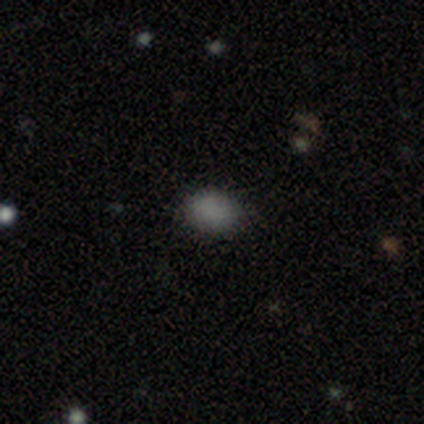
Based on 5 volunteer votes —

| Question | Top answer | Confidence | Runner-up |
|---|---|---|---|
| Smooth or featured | smooth | 100% | — |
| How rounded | in between | 60% | round (40%) |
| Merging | none | 80% | minor disturbance (20%) |